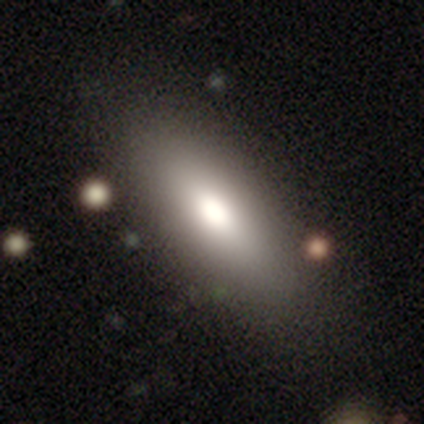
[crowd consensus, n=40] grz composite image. It shows a smooth galaxy with no disk features (68%) that is in between round and cigar-shaped (70%). Merging: none (90%).